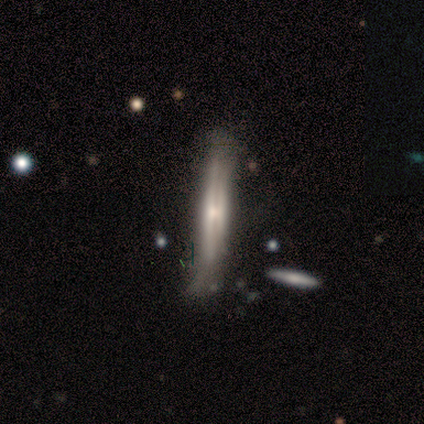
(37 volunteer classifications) Morphology: type=featured or disk (70%); edge-on=yes (100%); edge-on bulge=rounded (42%); merging=none (49%).